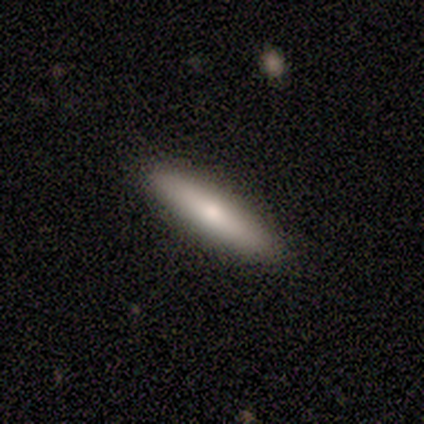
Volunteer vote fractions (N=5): Smooth or featured? 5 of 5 (100%) said smooth. How rounded? 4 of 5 (80%) said cigar-shaped. Merging? 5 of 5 (100%) said none.